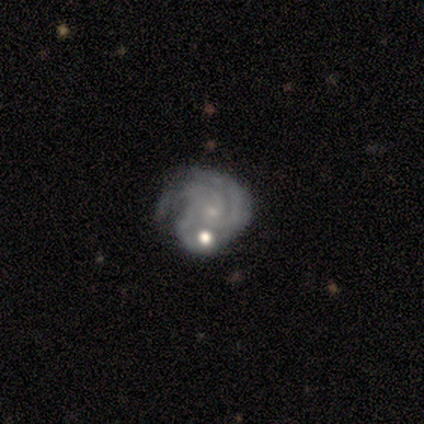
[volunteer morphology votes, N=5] type=featured or disk (100%); edge-on=no (80%); bar=no (100%); spiral arms=yes (100%); winding=tight (50%, tied with medium); arm count=3 (75%); bulge=small (100%); merging=none (40%, tied with merger).